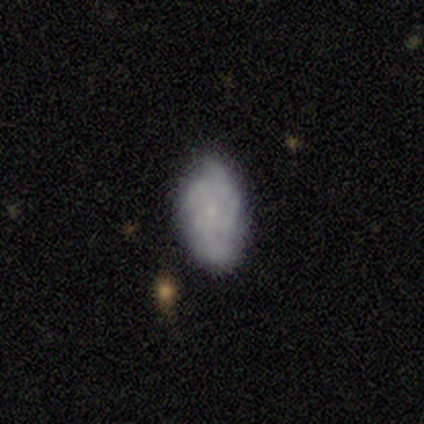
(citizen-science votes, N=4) smooth_or_featured: featured or disk (p=0.75) [alt: smooth p=0.25]
disk_edge_on: no (p=1.00)
bar: no (p=1.00)
has_spiral_arms: yes (p=0.67) [alt: no p=0.33]
spiral_winding: tight (p=0.50) [tied with: medium p=0.50]
spiral_arm_count: 2 (p=0.50) [tied with: can't tell p=0.50]
bulge_size: none (p=0.67) [alt: small p=0.33]
merging: major disturbance (p=0.50) [alt: none p=0.25]